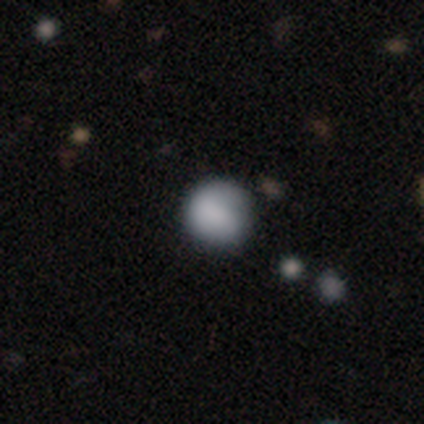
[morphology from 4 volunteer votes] Smooth or featured? smooth (50%, tied with featured or disk)
How rounded? round (100%)
Merging? none (50%, tied with minor disturbance)